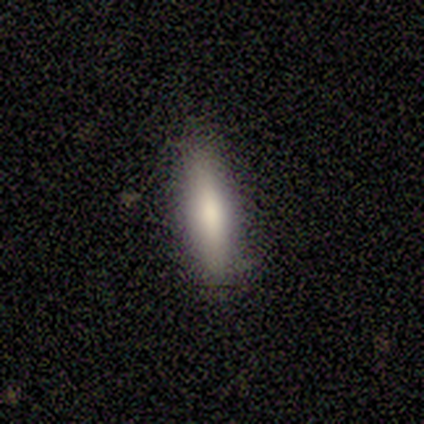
smooth-or-featured: smooth: 75% | featured or disk: 25% | star or artifact: 0%
  how-rounded: cigar-shaped: 67% | in between: 33% | round: 0%
  merging: none: 50% (tied) | minor disturbance: 50% (tied) | major disturbance: 0% | merger: 0%